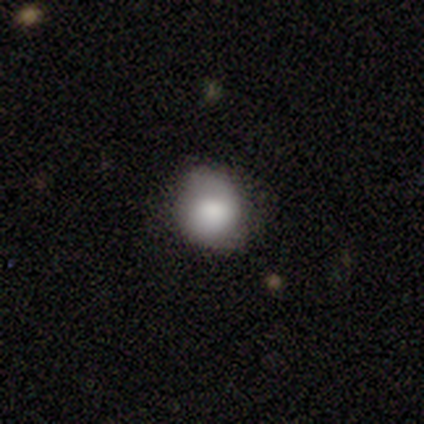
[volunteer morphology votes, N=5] Overall: smooth (80%). How rounded: round (100%). Merging: none (60%; minor disturbance 40%).